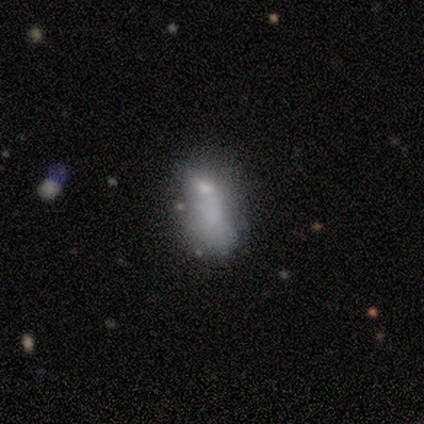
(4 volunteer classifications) Morphology: type=smooth (50%, tied with featured or disk); roundness=in between (100%); merging=major disturbance (75%).